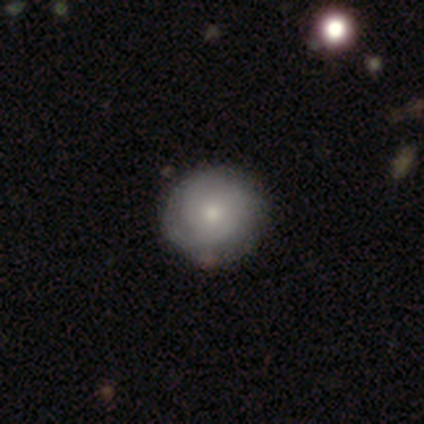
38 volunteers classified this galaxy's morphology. smooth 53%, featured or disk 39%, star or artifact 8%. Down the decision tree: how rounded — round (100%); merging — none (94%).